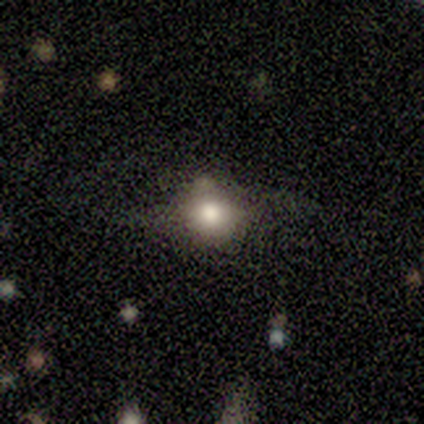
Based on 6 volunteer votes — Smooth or featured? smooth (67%)
How rounded? round (50%, tied with in between)
Merging? none (75%)